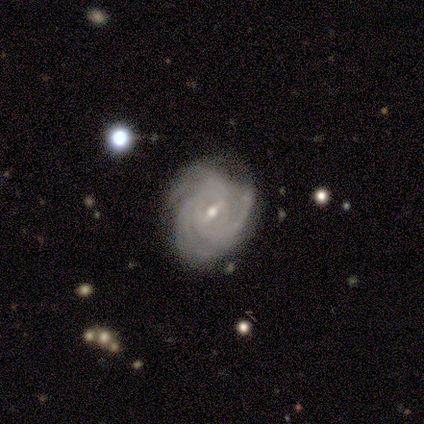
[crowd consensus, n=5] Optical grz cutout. It shows a featured or disk galaxy (80%) with a weak bar (100%), tight (100%) spiral arms (100%) and a moderate central bulge (50%, tied with small). Merging: none (60%).